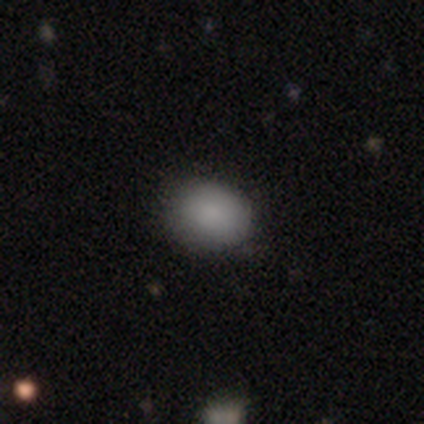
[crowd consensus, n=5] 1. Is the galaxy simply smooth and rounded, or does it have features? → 100% smooth, 0% featured or disk, 0% star or artifact.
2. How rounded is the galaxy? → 60% round, 40% in between, 0% cigar-shaped.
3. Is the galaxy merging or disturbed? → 40% none (tied), 40% minor disturbance (tied), 20% major disturbance, 0% merger.